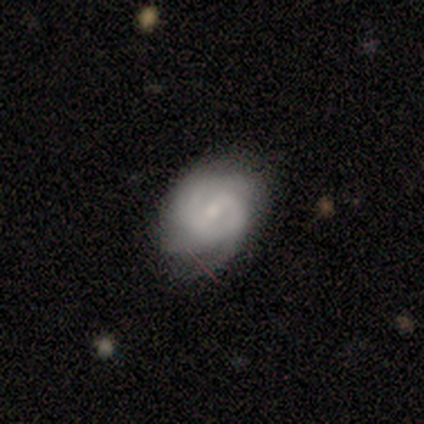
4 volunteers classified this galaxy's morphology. Smooth or featured: featured or disk — 75% (smooth — 25%)
Edge-on disk: no — 100%
Bar: no — 67% (weak — 33%)
Spiral arms: yes — 100%
Spiral winding: medium — 67% (tight — 33%)
Spiral arm count: can't tell — 100%
Bulge size: small — 67% (moderate — 33%)
Merging: none — 50% (tied with minor disturbance — 50%)